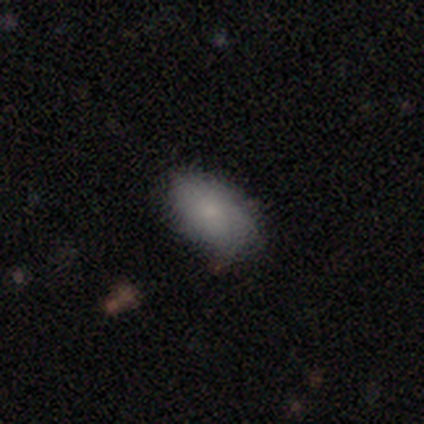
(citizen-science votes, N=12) Morphology: type=smooth (83%); roundness=in between (80%); merging=none (100%).